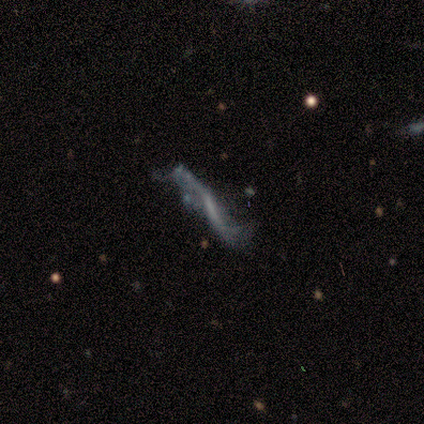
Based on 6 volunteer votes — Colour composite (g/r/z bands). It shows a featured or disk galaxy (83%) viewed edge-on (60%) with no central bulge (67%). Merging: none (40%).